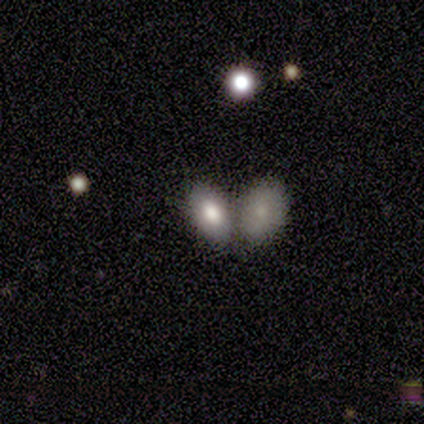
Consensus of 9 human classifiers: Smooth or featured? smooth (78%)
How rounded? in between (100%)
Merging? none (67%)